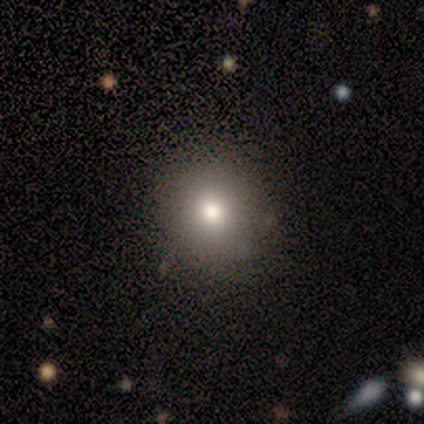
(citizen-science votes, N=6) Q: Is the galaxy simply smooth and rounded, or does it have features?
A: smooth — 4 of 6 (67%).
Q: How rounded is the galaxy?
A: round — 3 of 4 (75%).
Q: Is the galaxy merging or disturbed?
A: none — 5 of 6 (83%).